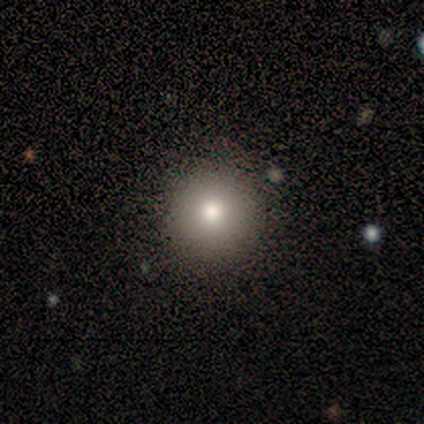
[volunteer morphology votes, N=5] smooth 80%, star or artifact 20%, featured or disk 0%. Down the decision tree: how rounded — round (100%); merging — none (100%).